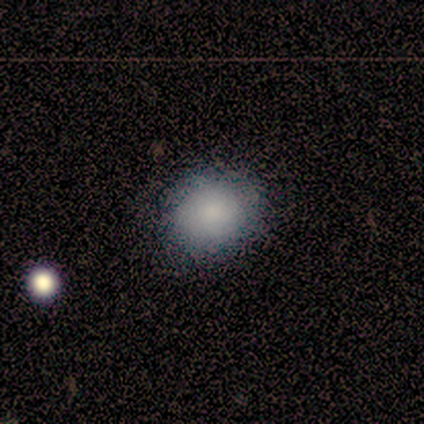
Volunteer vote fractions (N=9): smooth-or-featured: smooth: 78% | featured or disk: 11% | star or artifact: 11%
  how-rounded: round: 57% | in between: 43% | cigar-shaped: 0%
  merging: none: 62% | minor disturbance: 38% | major disturbance: 0% | merger: 0%